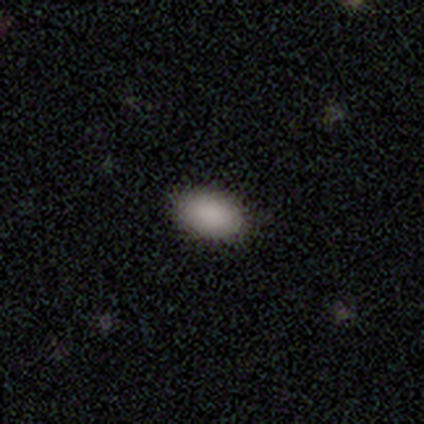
This appears to be a smooth galaxy with no disk features (100%) that is in between round and cigar-shaped (100%). Merging: none (100%).